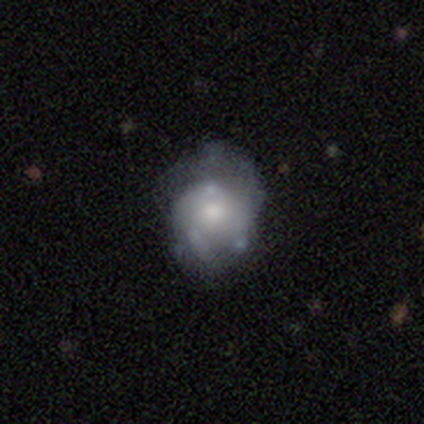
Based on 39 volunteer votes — smooth 54%, featured or disk 41%, star or artifact 5%. Down the decision tree: how rounded — round (62%); merging — none (38%).